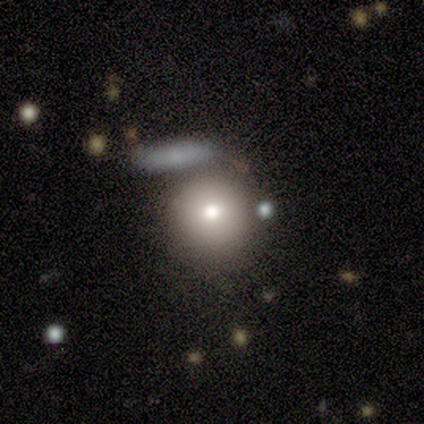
Volunteers were most divided on "merging": none: 88%, merger: 12%, minor disturbance: 0%, major disturbance: 0%. More confident: smooth or featured — smooth (100%); how rounded — round (100%).